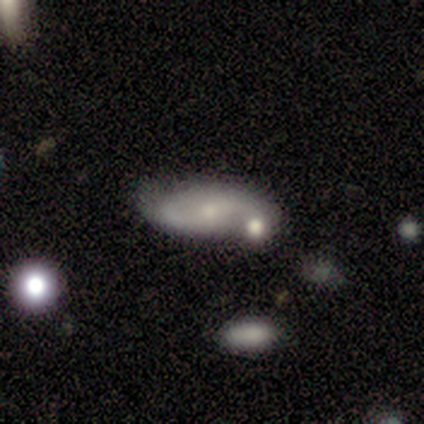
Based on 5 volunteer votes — Smooth or featured: featured or disk — 80% (smooth — 20%)
Edge-on disk: no — 75% (yes — 25%)
Bar: weak — 67% (no — 33%)
Spiral arms: yes — 100%
Spiral winding: tight — 33% (tied with medium — 33%; loose — 33%)
Spiral arm count: 2 — 100%
Bulge size: small — 67% (moderate — 33%)
Merging: none — 40% (tied with minor disturbance — 40%)